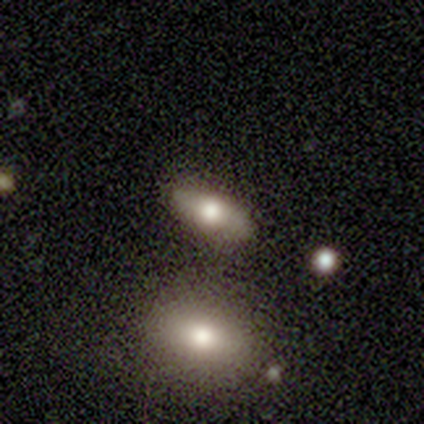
Morphology: type=smooth (78%); roundness=in between (71%); merging=none (75%).